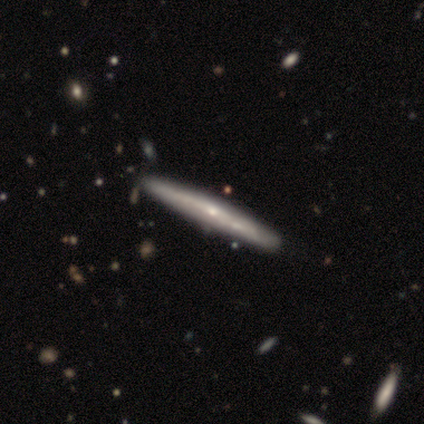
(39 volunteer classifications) This appears to be a featured or disk galaxy (77%) viewed edge-on (93%) with a rounded central bulge (57%). Merging: none (68%).